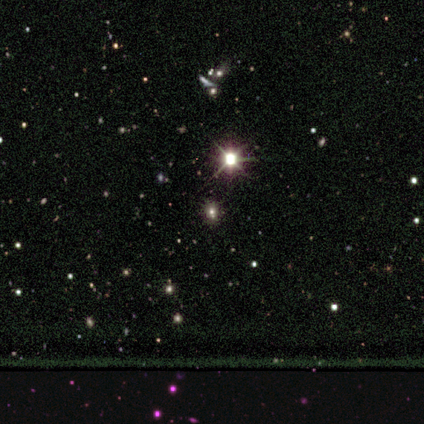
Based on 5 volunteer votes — This appears to be a star or artifact, not a galaxy (100%).